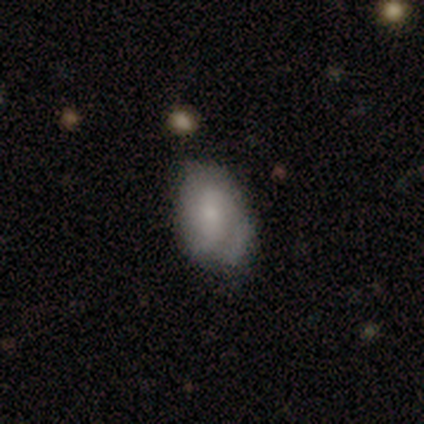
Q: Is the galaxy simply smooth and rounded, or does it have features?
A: smooth — 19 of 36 (53%).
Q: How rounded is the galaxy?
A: in between — 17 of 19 (89%).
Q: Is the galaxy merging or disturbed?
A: none — 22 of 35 (63%).